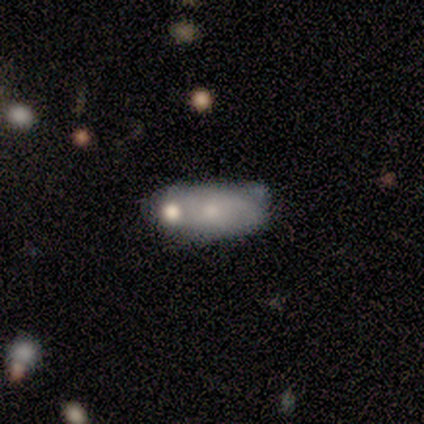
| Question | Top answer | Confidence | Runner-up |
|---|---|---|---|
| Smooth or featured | smooth | 55% | featured or disk (45%) |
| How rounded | in between | 83% | cigar-shaped (17%) |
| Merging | merger | 45% | none (27%) |